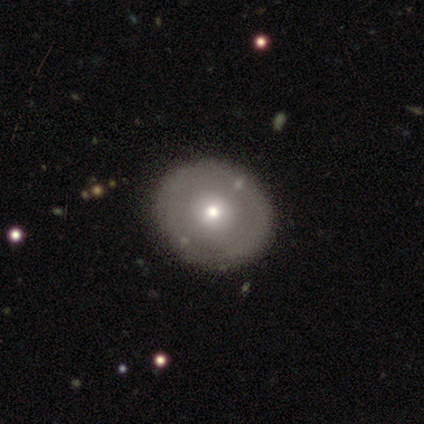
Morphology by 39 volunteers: A smooth galaxy with no disk features (46%, tied with featured or disk) that is round (72%).

Vote fractions:
- Smooth or featured? smooth: 46% (tied) / featured or disk: 46% (tied) / star or artifact: 8%
- How rounded? round: 72% / in between: 28% / cigar-shaped: 0%
- Merging? none: 92% / minor disturbance: 6% / major disturbance: 3% / merger: 0%